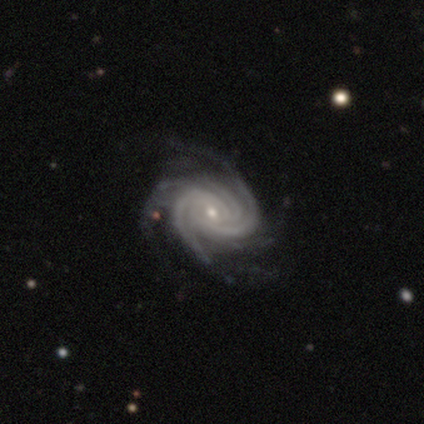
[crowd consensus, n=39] A featured or disk galaxy (90%) with no bar (56%), 3 (29%) tight (59%) spiral arms (100%) and a small central bulge (65%). Merging: none (81%).